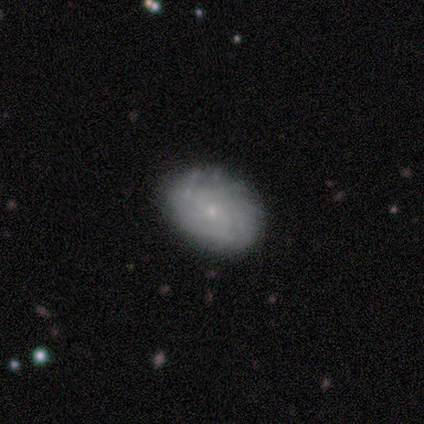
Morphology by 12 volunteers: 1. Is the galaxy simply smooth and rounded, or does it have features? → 67% featured or disk, 33% smooth, 0% star or artifact.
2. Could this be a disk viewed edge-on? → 100% no, 0% yes.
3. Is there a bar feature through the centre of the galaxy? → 62% no, 38% weak, 0% strong.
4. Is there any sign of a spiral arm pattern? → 75% yes, 25% no.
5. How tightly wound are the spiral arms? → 50% tight, 33% medium, 17% loose.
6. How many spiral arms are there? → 33% more than 4 (tied), 33% can't tell (tied), 17% 2, 17% 4, 0% 1, 0% 3.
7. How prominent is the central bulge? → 75% small, 12% moderate, 12% none, 0% dominant, 0% large.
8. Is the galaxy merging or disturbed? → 83% none, 17% minor disturbance, 0% major disturbance, 0% merger.